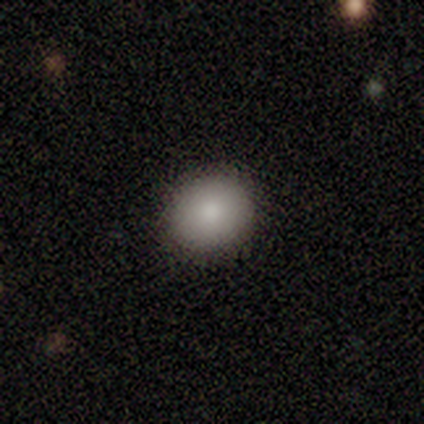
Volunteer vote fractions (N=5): A smooth galaxy with no disk features (100%) that is round (100%). Merging: none (100%).